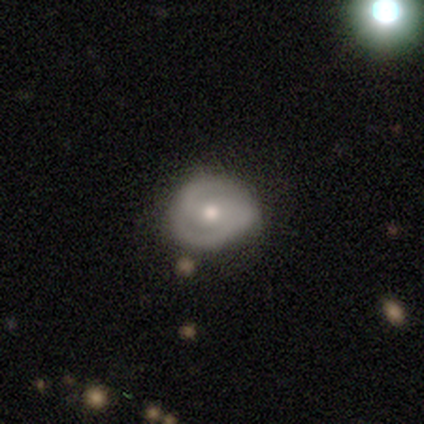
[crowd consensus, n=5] smooth_or_featured: featured or disk (p=0.60) [alt: smooth p=0.20]
disk_edge_on: no (p=1.00)
bar: no (p=0.67) [alt: strong p=0.33]
has_spiral_arms: yes (p=1.00)
spiral_winding: medium (p=0.67) [alt: tight p=0.33]
spiral_arm_count: 2 (p=1.00)
bulge_size: moderate (p=0.67) [alt: small p=0.33]
merging: none (p=0.50) [alt: minor disturbance p=0.25]